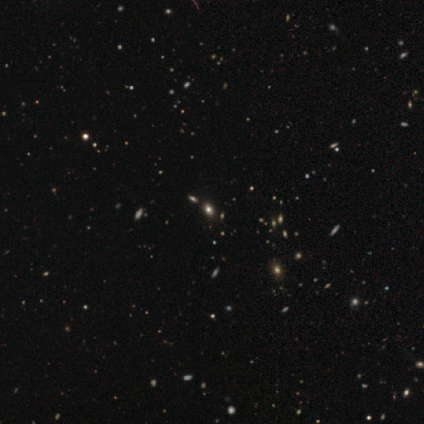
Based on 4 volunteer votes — star or artifact 100%, smooth 0%, featured or disk 0%.